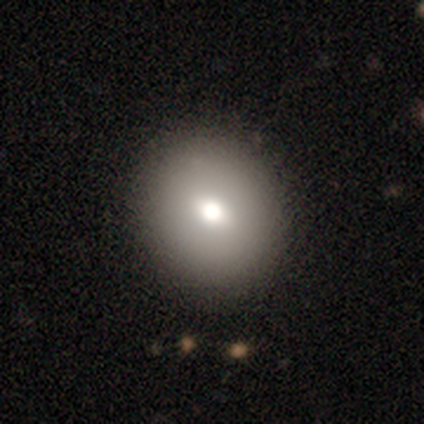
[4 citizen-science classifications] smooth 75%, featured or disk 25%, star or artifact 0%. Down the decision tree: how rounded — round (100%); merging — none (100%).